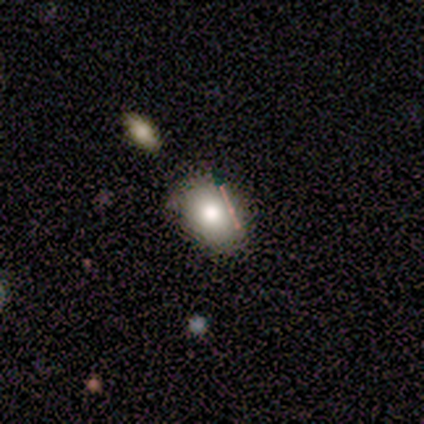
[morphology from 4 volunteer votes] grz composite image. It shows a smooth galaxy with no disk features (100%) that is in between round and cigar-shaped (50%). Merging: none (75%).